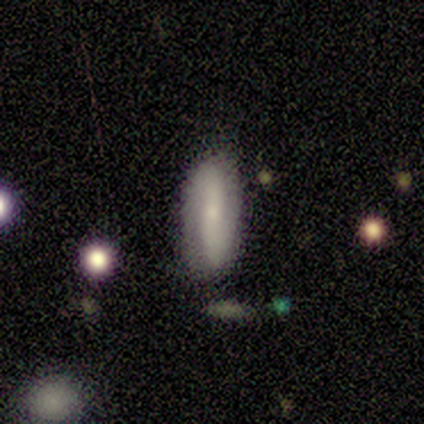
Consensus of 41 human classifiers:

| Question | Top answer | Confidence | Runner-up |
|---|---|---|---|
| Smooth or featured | featured or disk | 73% | smooth (24%) |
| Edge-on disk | no | 90% | yes (10%) |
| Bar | no | 41% | strong (37%) |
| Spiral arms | yes | 89% | no (11%) |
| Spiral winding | tight | 42% | medium (29%) |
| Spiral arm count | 2 | 100% | — |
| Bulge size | small | 78% | moderate (15%) |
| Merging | none | 85% | minor disturbance (15%) |